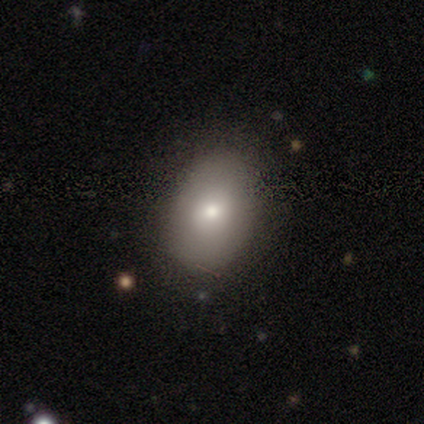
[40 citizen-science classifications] Volunteers were most divided on "smooth or featured": smooth: 70%, featured or disk: 25%, star or artifact: 5%. More confident: merging — none (82%); how rounded — in between (79%).